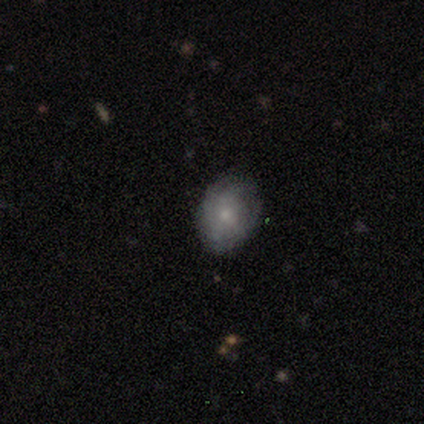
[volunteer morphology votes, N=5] A smooth galaxy with no disk features (60%) that is round (67%).

Vote fractions:
- Smooth or featured? smooth: 60% / featured or disk: 40% / star or artifact: 0%
- How rounded? round: 67% / in between: 33% / cigar-shaped: 0%
- Merging? none: 60% / minor disturbance: 40% / major disturbance: 0% / merger: 0%